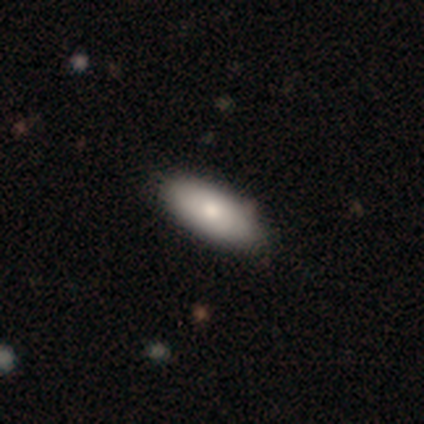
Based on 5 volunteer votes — smooth_or_featured: smooth (p=0.80) [alt: star or artifact p=0.20]
how_rounded: in between (p=0.75) [alt: cigar-shaped p=0.25]
merging: none (p=1.00)